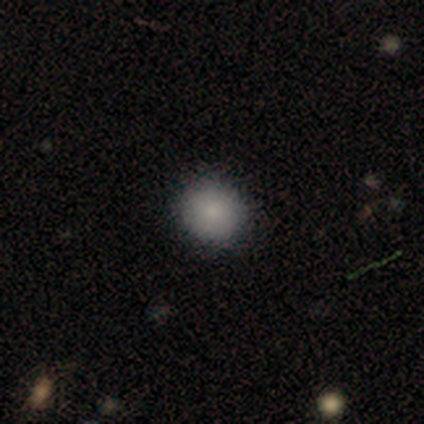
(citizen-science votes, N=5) Consensus on every question: smooth or featured — smooth (100%); how rounded — round (100%); merging — none (100%).